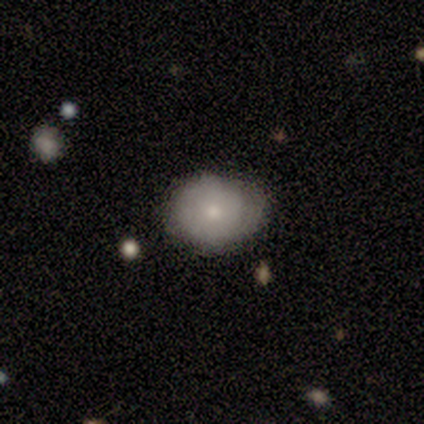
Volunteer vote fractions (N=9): A smooth galaxy with no disk features (89%) that is round (75%).

Vote fractions:
- Smooth or featured? smooth: 89% / star or artifact: 11% / featured or disk: 0%
- How rounded? round: 75% / in between: 25% / cigar-shaped: 0%
- Merging? none: 62% / minor disturbance: 25% / major disturbance: 12% / merger: 0%